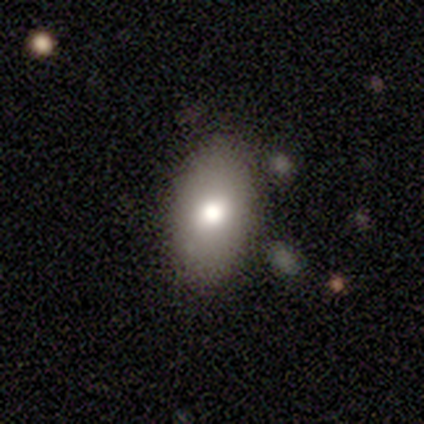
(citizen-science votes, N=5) This appears to be a smooth galaxy with no disk features (100%) that is in between round and cigar-shaped (80%). Merging: none (60%).